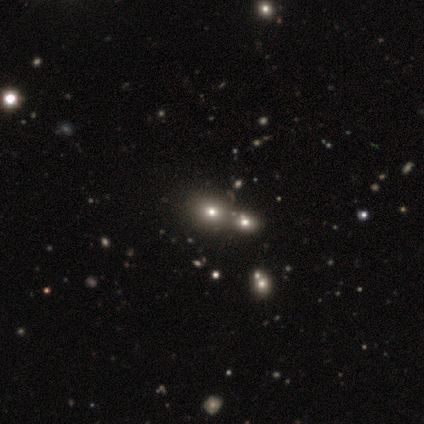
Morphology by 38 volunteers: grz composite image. It shows a smooth galaxy with no disk features (66%) that is round (72%). Merging: merger (39%).